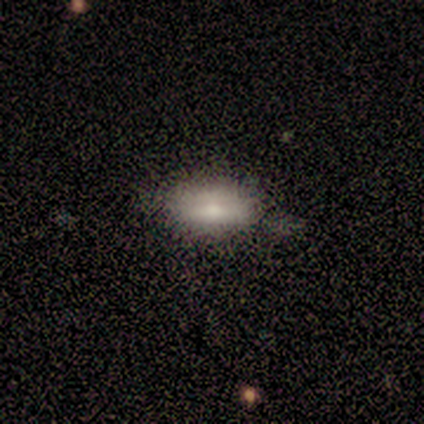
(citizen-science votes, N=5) Volunteers were most divided on "merging": none: 80%, minor disturbance: 20%, major disturbance: 0%, merger: 0%. More confident: smooth or featured — smooth (100%); how rounded — in between (100%).